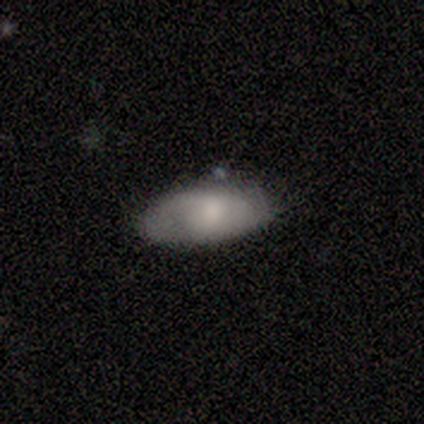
Smooth or featured? smooth (100%)
How rounded? in between (91%)
Merging? none (91%)